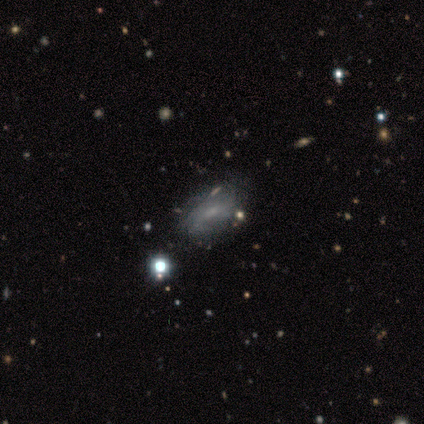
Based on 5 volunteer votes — smooth-or-featured: featured or disk: 80% | star or artifact: 20% | smooth: 0%
  disk-edge-on: no: 75% | yes: 25%
    bar: weak: 67% | no: 33% | strong: 0%
    has-spiral-arms: yes: 67% | no: 33%
      spiral-winding: medium: 100% | tight: 0% | loose: 0%
      spiral-arm-count: 3: 50% (tied) | can't tell: 50% (tied) | 1: 0% | 2: 0% | 4: 0% | more than 4: 0%
    bulge-size: small: 67% | moderate: 33% | dominant: 0% | large: 0% | none: 0%
  merging: none: 50% (tied) | minor disturbance: 50% (tied) | major disturbance: 0% | merger: 0%